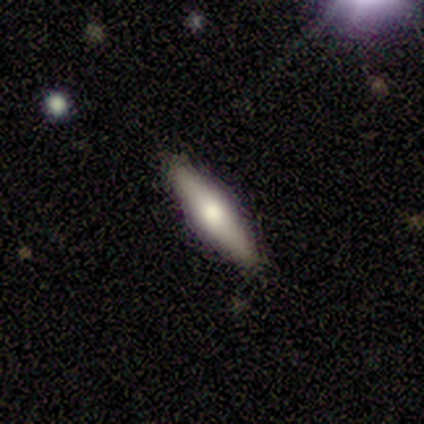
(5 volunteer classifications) smooth-or-featured: smooth: 80% | featured or disk: 20% | star or artifact: 0%
  how-rounded: cigar-shaped: 75% | in between: 25% | round: 0%
  merging: none: 100% | minor disturbance: 0% | major disturbance: 0% | merger: 0%